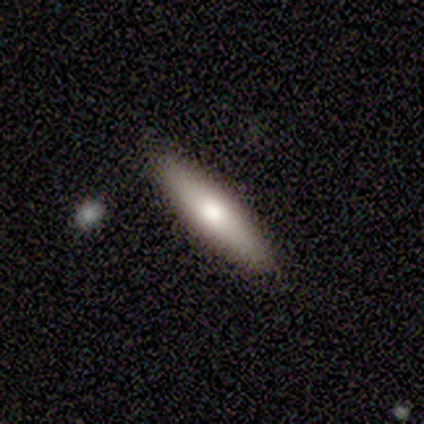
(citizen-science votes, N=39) Smooth or featured? 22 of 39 (56%) said smooth. How rounded? 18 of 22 (82%) said cigar-shaped. Merging? 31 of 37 (84%) said none.